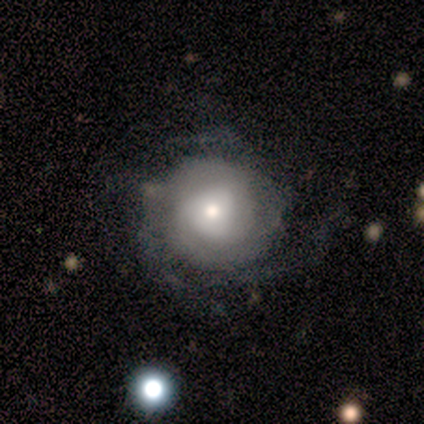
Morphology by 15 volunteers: Smooth or featured: featured or disk — 73% (smooth — 27%)
Edge-on disk: no — 100%
Bar: no — 82% (weak — 18%)
Spiral arms: yes — 82% (no — 18%)
Spiral winding: tight — 56% (loose — 33%)
Spiral arm count: 2 — 33% (tied with 3 — 33%; can't tell — 33%)
Bulge size: small — 45% (moderate — 27%)
Merging: none — 67% (minor disturbance — 20%)